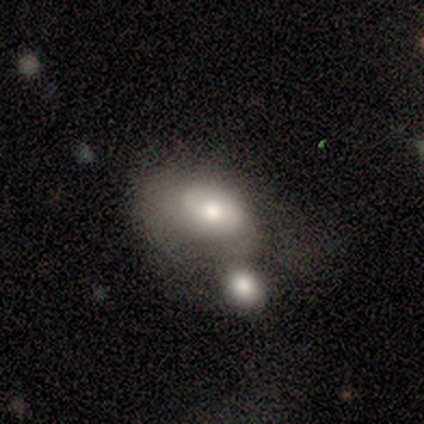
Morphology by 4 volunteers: smooth-or-featured: smooth: 75% | featured or disk: 25% | star or artifact: 0%
  how-rounded: in between: 100% | round: 0% | cigar-shaped: 0%
  merging: merger: 75% | major disturbance: 25% | none: 0% | minor disturbance: 0%